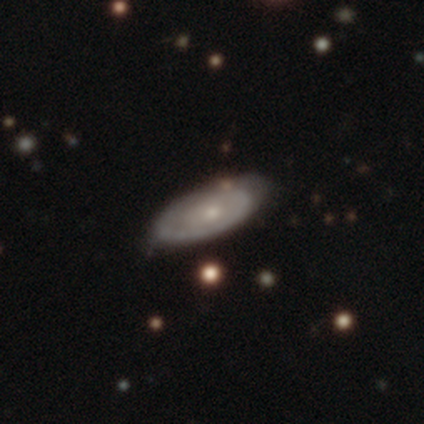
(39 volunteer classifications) featured or disk 82%, smooth 13%, star or artifact 5%. Down the decision tree: edge-on disk — no (81%); bar — no (81%); spiral arms — yes (65%); spiral arm count — 1 (53%); spiral winding — tight (71%); bulge size — small (58%); merging — none (76%).